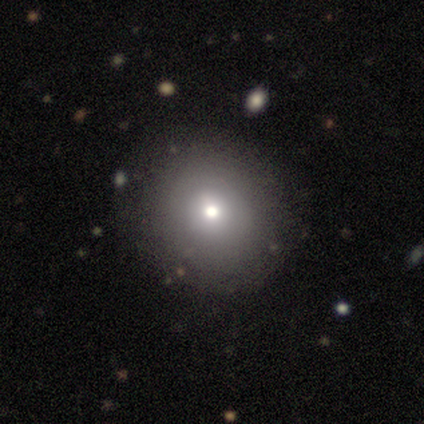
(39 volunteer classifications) This is likely a smooth galaxy (62%). How rounded: clearly round (92%). Merging: clearly none (86%).